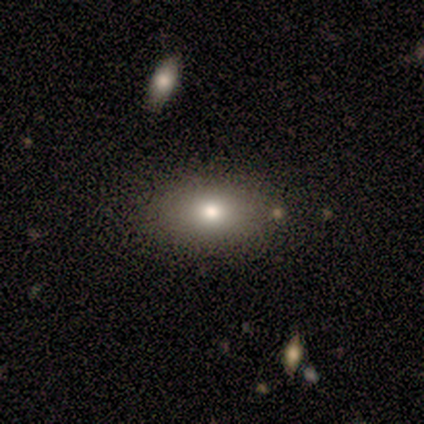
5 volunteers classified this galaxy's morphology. This is clearly a smooth galaxy (80%). How rounded: likely in between (75%). Merging: likely none (75%).